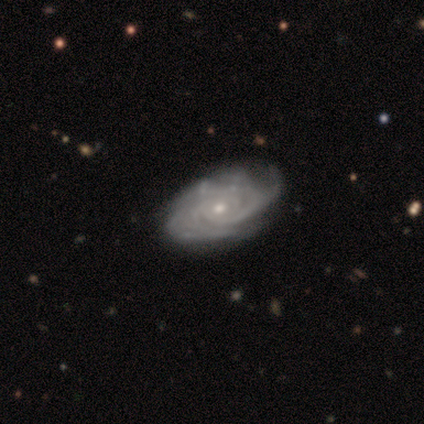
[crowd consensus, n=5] A featured or disk galaxy (100%) with no bar (100%), 2 (40%, tied with can't tell) medium (60%) spiral arms (100%) and a small central bulge (100%). Merging: none (60%).